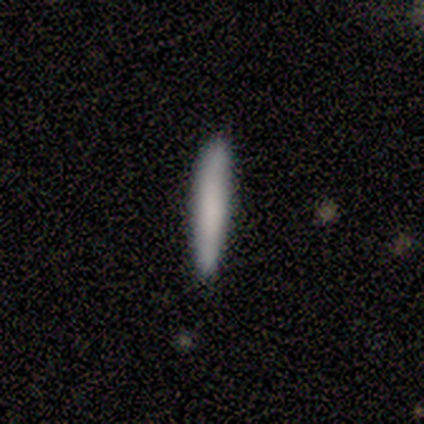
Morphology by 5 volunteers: Smooth or featured: smooth — 80% (featured or disk — 20%)
How rounded: cigar-shaped — 100%
Merging: none — 100%